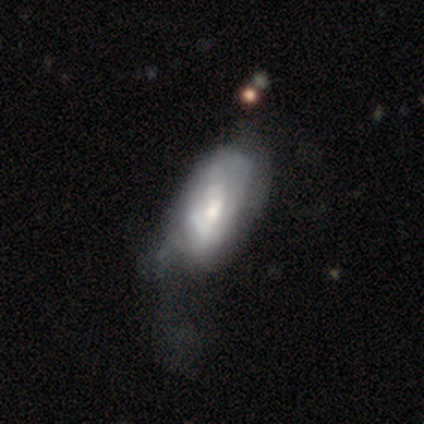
Q: Smooth or featured?
A: featured or disk (59%); runner-up: smooth (41%)
Q: Edge-on disk?
A: no (100%)
Q: Bar?
A: weak (50%); tied with: no (50%)
Q: Spiral arms?
A: yes (90%); runner-up: no (10%)
Q: Spiral winding?
A: tight (67%); runner-up: loose (22%)
Q: Spiral arm count?
A: can't tell (56%); runner-up: 2 (33%)
Q: Bulge size?
A: small (50%); runner-up: moderate (40%)
Q: Merging?
A: minor disturbance (35%); tied with: major disturbance (35%)